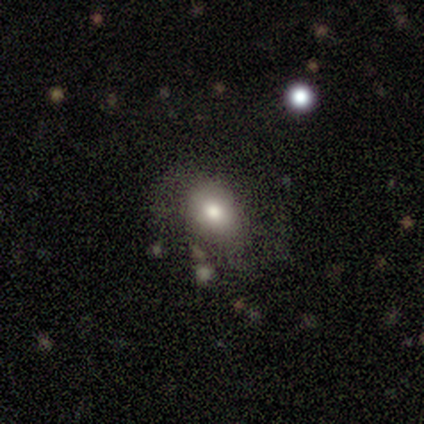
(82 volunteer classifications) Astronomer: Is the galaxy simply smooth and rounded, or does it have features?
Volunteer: smooth — 65%.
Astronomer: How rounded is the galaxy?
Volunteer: in between — 62% (runner-up: round, 38%).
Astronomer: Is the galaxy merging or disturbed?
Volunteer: none — 62%.